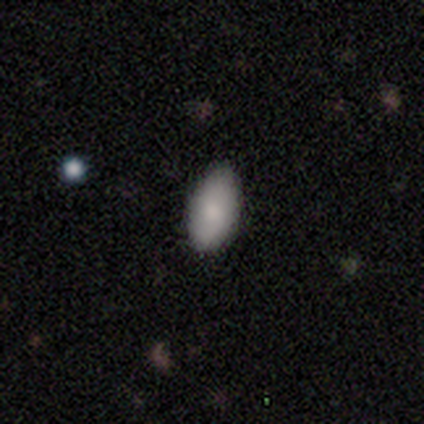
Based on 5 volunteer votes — smooth 80%, featured or disk 20%, star or artifact 0%. Down the decision tree: how rounded — in between (100%); merging — none (80%).